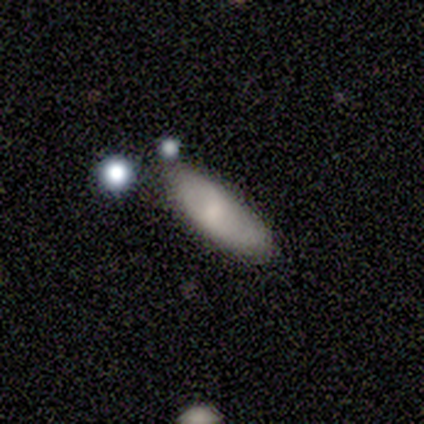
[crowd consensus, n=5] Smooth or featured?
  - smooth: 40% * (tied)
  - featured or disk: 40% * (tied)
  - star or artifact: 20%
How rounded?
  - in between: 100% *
  - round: 0%
  - cigar-shaped: 0%
Merging?
  - none: 75% *
  - minor disturbance: 25%
  - major disturbance: 0%
  - merger: 0%